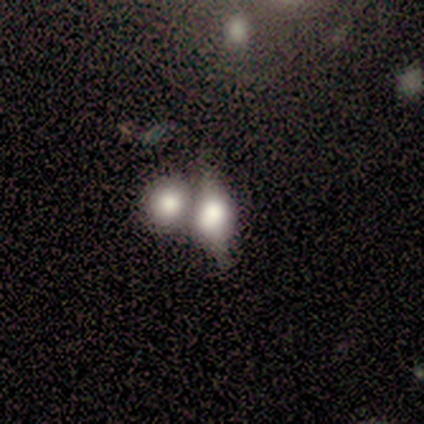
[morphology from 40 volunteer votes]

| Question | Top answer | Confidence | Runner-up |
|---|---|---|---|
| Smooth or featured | smooth | 60% | featured or disk (30%) |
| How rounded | in between | 62% | round (38%) |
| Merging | merger | 61% | none (25%) |